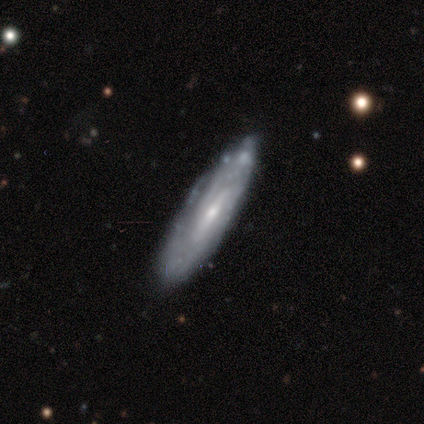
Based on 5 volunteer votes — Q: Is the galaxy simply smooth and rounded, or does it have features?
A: featured or disk — 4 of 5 (80%).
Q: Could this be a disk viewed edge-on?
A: no — 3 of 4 (75%).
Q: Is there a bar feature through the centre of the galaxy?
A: weak — 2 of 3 (67%).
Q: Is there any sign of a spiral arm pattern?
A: yes — 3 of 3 (100%).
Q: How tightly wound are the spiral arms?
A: tight — 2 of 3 (67%).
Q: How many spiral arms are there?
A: can't tell — 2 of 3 (67%).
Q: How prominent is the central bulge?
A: small — 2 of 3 (67%).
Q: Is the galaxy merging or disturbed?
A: none — 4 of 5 (80%).